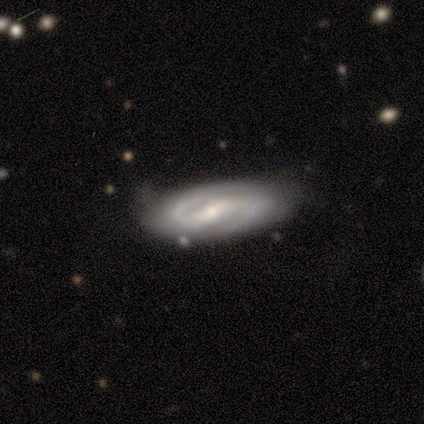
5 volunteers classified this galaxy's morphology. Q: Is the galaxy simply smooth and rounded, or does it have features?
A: featured or disk — 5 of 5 (100%).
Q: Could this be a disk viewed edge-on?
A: no — 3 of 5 (60%).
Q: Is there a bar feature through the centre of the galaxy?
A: strong — 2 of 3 (67%).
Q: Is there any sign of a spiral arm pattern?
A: yes — 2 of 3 (67%).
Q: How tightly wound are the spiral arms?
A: tight — 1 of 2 (50%, tied with medium).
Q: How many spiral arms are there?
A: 2 — 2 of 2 (100%).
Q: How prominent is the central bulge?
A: moderate — 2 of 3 (67%).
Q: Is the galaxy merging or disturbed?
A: none — 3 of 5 (60%).